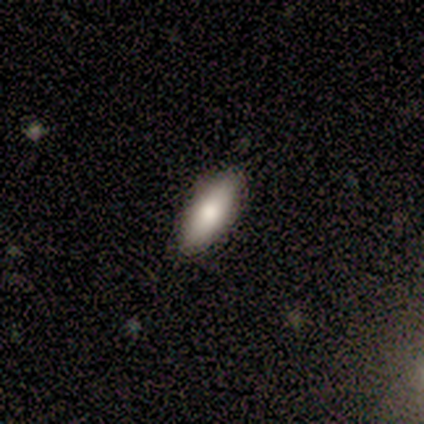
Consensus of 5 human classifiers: smooth 100%, featured or disk 0%, star or artifact 0%. Down the decision tree: how rounded — in between (60%); merging — none (100%).